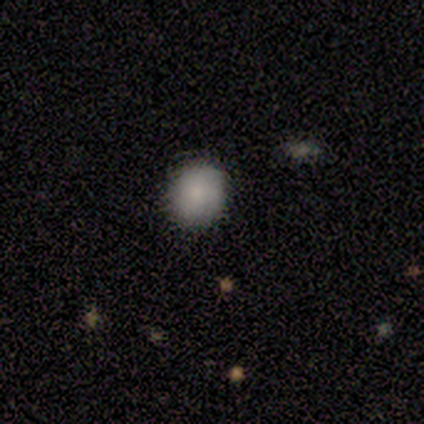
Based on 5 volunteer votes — Smooth or featured?
  - smooth: 60% *
  - featured or disk: 40%
  - star or artifact: 0%
How rounded?
  - round: 100% *
  - in between: 0%
  - cigar-shaped: 0%
Merging?
  - none: 80% *
  - merger: 20%
  - minor disturbance: 0%
  - major disturbance: 0%